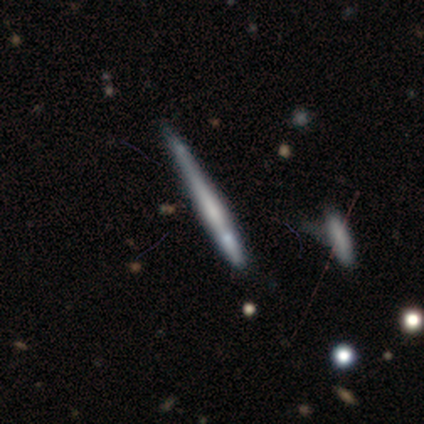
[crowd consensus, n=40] Smooth or featured: smooth — 48% (featured or disk — 45%)
How rounded: cigar-shaped — 95% (round — 5%)
Merging: none — 70% (minor disturbance — 16%)